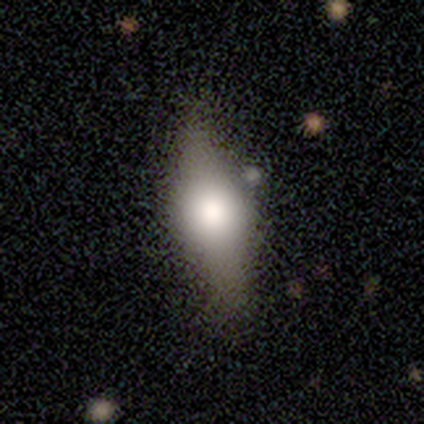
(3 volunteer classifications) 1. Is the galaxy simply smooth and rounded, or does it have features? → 67% smooth, 33% featured or disk, 0% star or artifact.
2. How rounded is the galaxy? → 50% in between (tied), 50% cigar-shaped (tied), 0% round.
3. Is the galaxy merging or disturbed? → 100% none, 0% minor disturbance, 0% major disturbance, 0% merger.